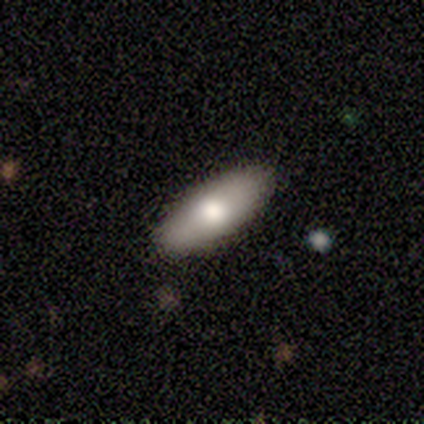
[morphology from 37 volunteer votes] A smooth galaxy with no disk features (65%) that is in between round and cigar-shaped (62%).

Vote fractions:
- Smooth or featured? smooth: 65% / featured or disk: 27% / star or artifact: 8%
- How rounded? in between: 62% / cigar-shaped: 33% / round: 4%
- Merging? none: 94% / minor disturbance: 3% / merger: 3% / major disturbance: 0%